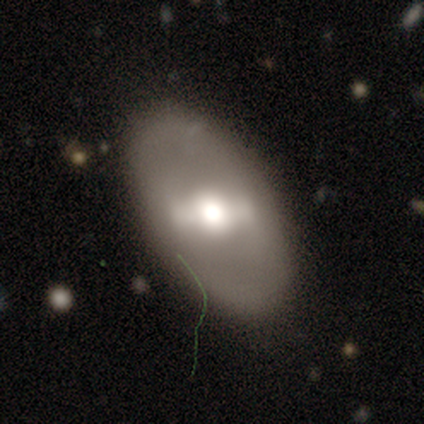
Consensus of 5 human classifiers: Volunteers were most divided on "bulge size" (2-way tie): dominant: 40%, moderate: 40%, large: 20%, small: 0%, none: 0%. More confident: smooth or featured — featured or disk (100%); edge-on disk — no (100%); spiral arms — no (100%); merging — none (100%); bar — strong (60%).